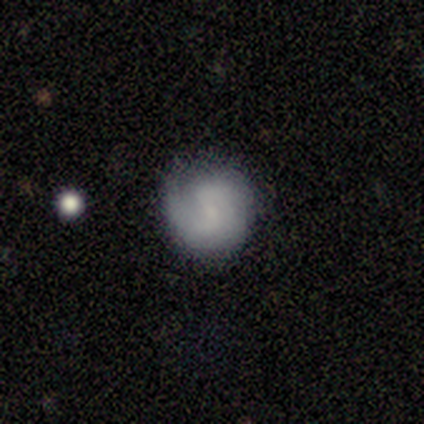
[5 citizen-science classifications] Volunteers were most divided on "smooth or featured": smooth: 60%, featured or disk: 40%, star or artifact: 0%. More confident: how rounded — round (67%); merging — none (60%).